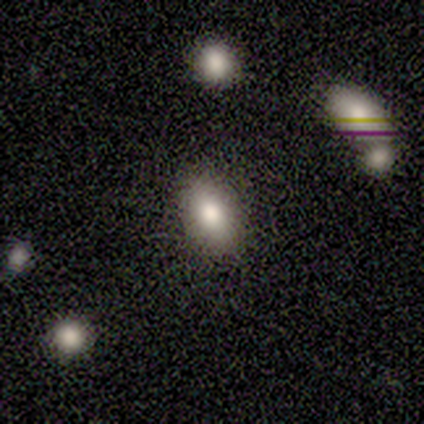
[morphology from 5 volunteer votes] This appears to be a smooth galaxy with no disk features (100%) that is in between round and cigar-shaped (100%). Merging: none (100%).